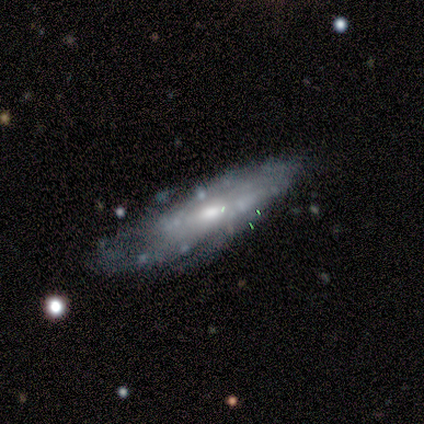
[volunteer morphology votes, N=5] A featured or disk galaxy (80%) with a weak bar (50%), tight (50%, tied with medium) spiral arms (50%, tied with no) and a moderate central bulge (75%). Merging: none (60%).